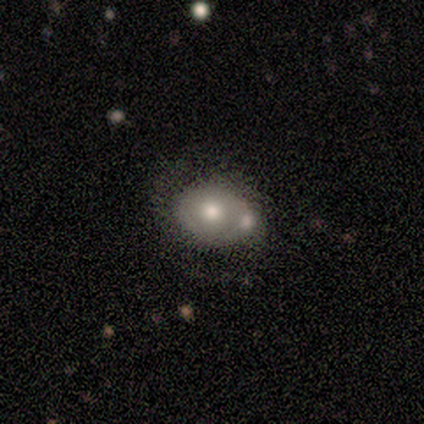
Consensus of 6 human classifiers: A smooth galaxy with no disk features (50%) that is in between round and cigar-shaped (100%).

Vote fractions:
- Smooth or featured? smooth: 50% / featured or disk: 33% / star or artifact: 17%
- How rounded? in between: 100% / round: 0% / cigar-shaped: 0%
- Merging? merger: 40% / none: 20% / minor disturbance: 20% / major disturbance: 20%